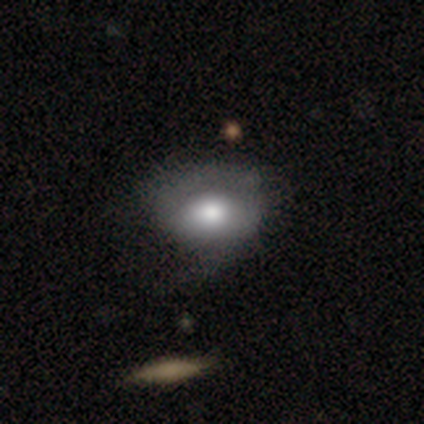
Morphology: type=smooth (63%); roundness=in between (83%); merging=major disturbance (33%).